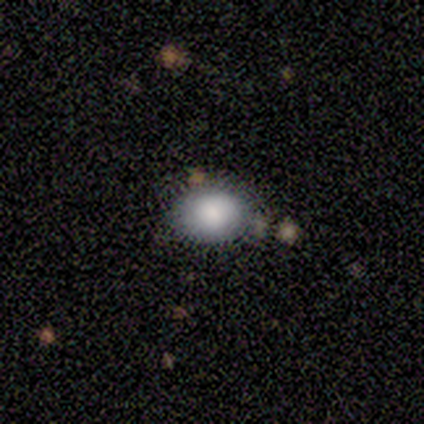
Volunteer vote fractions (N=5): A smooth galaxy with no disk features (100%) that is in between round and cigar-shaped (60%). Merging: none (100%).